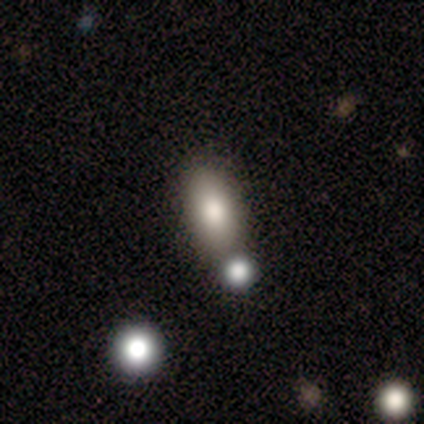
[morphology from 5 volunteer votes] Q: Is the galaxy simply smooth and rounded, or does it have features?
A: smooth — 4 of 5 (80%).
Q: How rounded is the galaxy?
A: in between — 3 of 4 (75%).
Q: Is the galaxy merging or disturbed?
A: none — 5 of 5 (100%).